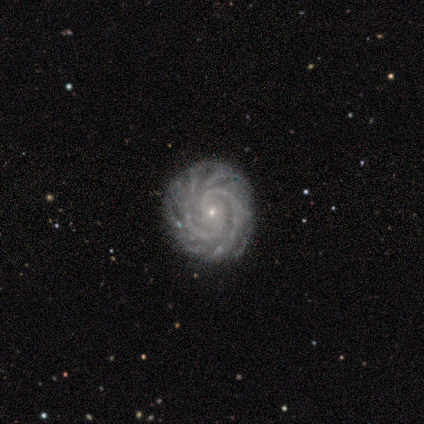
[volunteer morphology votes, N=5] featured or disk 100%, smooth 0%, star or artifact 0%. Down the decision tree: edge-on disk — no (100%); bar — no (100%); spiral arms — yes (100%); spiral arm count — 4 (40%); spiral winding — medium (60%); bulge size — small (100%); merging — none (100%).